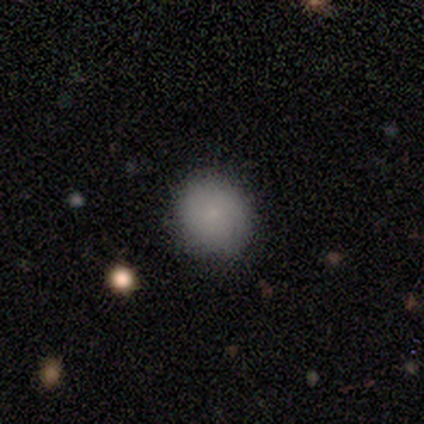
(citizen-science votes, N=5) Smooth or featured? smooth (100%)
How rounded? round (100%)
Merging? none (100%)